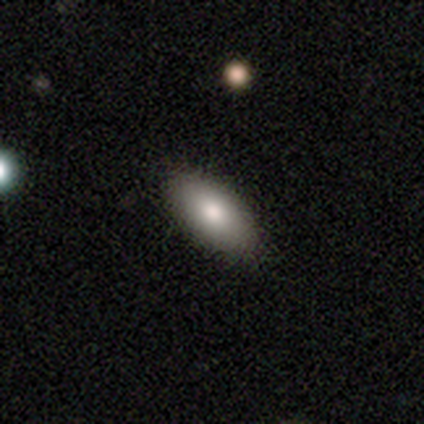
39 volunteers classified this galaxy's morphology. Q: Smooth or featured?
A: smooth (90%); runner-up: featured or disk (5%)
Q: How rounded?
A: in between (89%); runner-up: cigar-shaped (11%)
Q: Merging?
A: none (86%); runner-up: minor disturbance (8%)